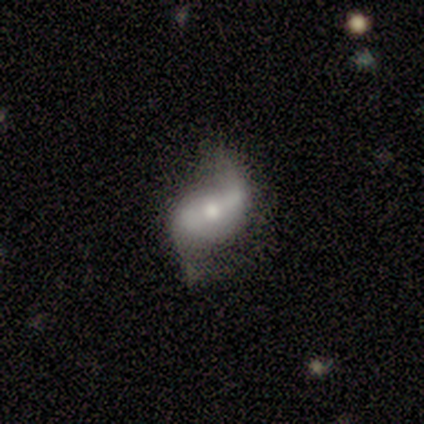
smooth-or-featured: featured or disk: 100% | smooth: 0% | star or artifact: 0%
  disk-edge-on: no: 80% | yes: 20%
    bar: strong: 75% | weak: 25% | no: 0%
    has-spiral-arms: yes: 100% | no: 0%
      spiral-winding: loose: 100% | tight: 0% | medium: 0%
      spiral-arm-count: 2: 100% | 1: 0% | 3: 0% | 4: 0% | more than 4: 0% | can't tell: 0%
    bulge-size: small: 50% | large: 25% | moderate: 25% | dominant: 0% | none: 0%
  merging: none: 80% | major disturbance: 20% | minor disturbance: 0% | merger: 0%